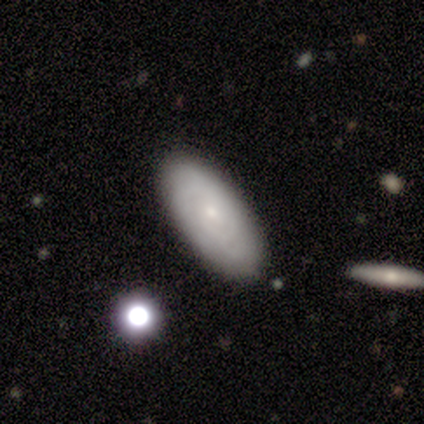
Smooth or featured?
  - smooth: 60% *
  - featured or disk: 40%
  - star or artifact: 0%
How rounded?
  - in between: 67% *
  - cigar-shaped: 33%
  - round: 0%
Merging?
  - none: 60% *
  - minor disturbance: 40%
  - major disturbance: 0%
  - merger: 0%